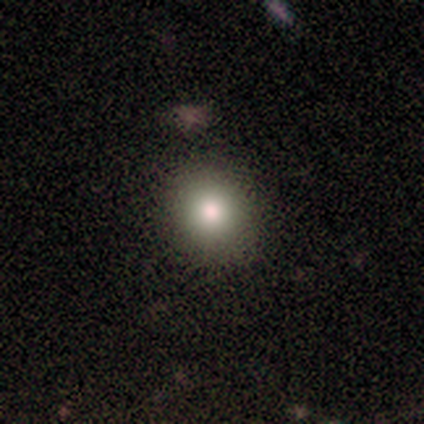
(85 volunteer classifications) Q: Smooth or featured?
A: smooth (80%); runner-up: star or artifact (11%)
Q: How rounded?
A: round (84%); runner-up: in between (16%)
Q: Merging?
A: none (91%); runner-up: minor disturbance (8%)